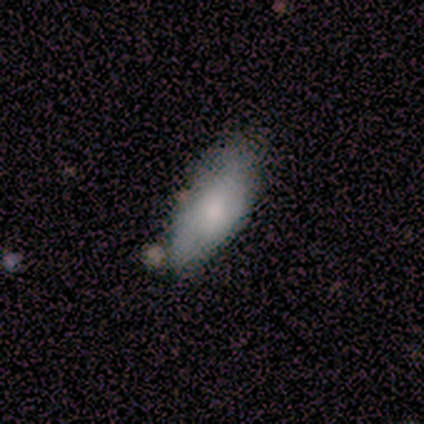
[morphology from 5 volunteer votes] Q: Smooth or featured?
A: smooth (60%); runner-up: featured or disk (20%)
Q: How rounded?
A: in between (100%)
Q: Merging?
A: none (50%); tied with: minor disturbance (50%)